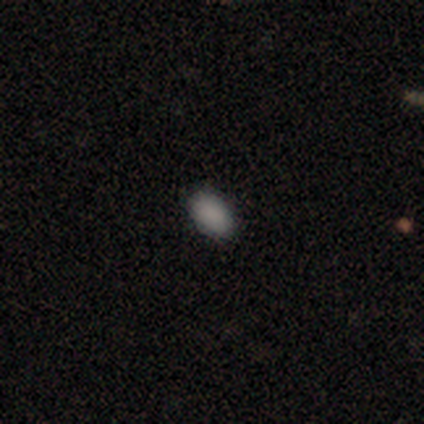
smooth_or_featured: smooth (p=1.00)
how_rounded: in between (p=0.80) [alt: round p=0.20]
merging: none (p=1.00)